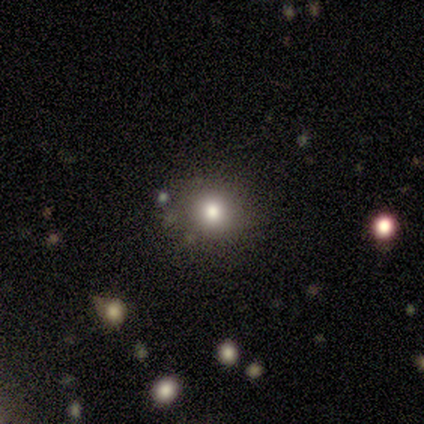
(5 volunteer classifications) This is likely a smooth galaxy (60%). How rounded: likely round (67%). Merging: clearly none (100%).